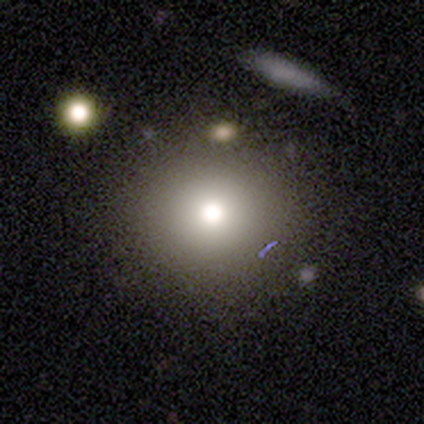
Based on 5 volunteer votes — A smooth galaxy with no disk features (80%) that is round (100%). Merging: none (100%).